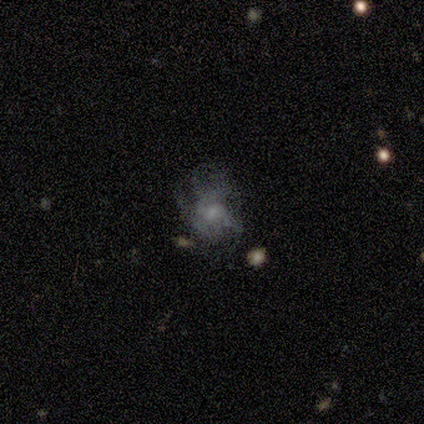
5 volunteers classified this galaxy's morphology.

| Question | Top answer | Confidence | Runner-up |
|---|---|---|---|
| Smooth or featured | featured or disk | 60% | smooth (40%) |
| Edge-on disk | no | 100% | — |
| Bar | no | 67% | weak (33%) |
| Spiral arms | yes | 100% | — |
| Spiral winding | medium | 67% | loose (33%) |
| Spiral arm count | can't tell | 67% | more than 4 (33%) |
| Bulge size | small | 67% | moderate (33%) |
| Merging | none | 40% | tied: minor disturbance (40%) |